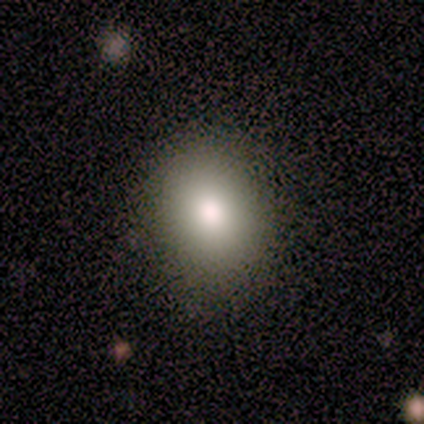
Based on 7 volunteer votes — smooth-or-featured: smooth: 86% | featured or disk: 14% | star or artifact: 0%
  how-rounded: round: 83% | in between: 17% | cigar-shaped: 0%
  merging: none: 100% | minor disturbance: 0% | major disturbance: 0% | merger: 0%